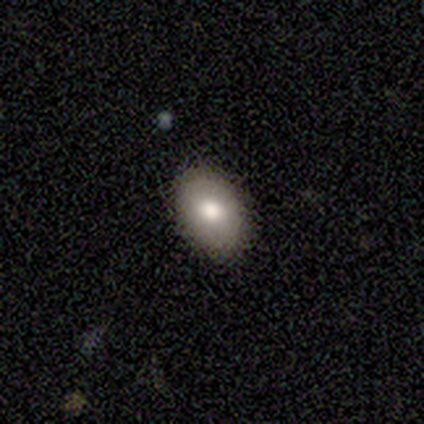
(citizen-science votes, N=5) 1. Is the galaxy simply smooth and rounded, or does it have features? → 80% smooth, 20% featured or disk, 0% star or artifact.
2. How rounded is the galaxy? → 75% in between, 25% round, 0% cigar-shaped.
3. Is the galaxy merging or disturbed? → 100% none, 0% minor disturbance, 0% major disturbance, 0% merger.